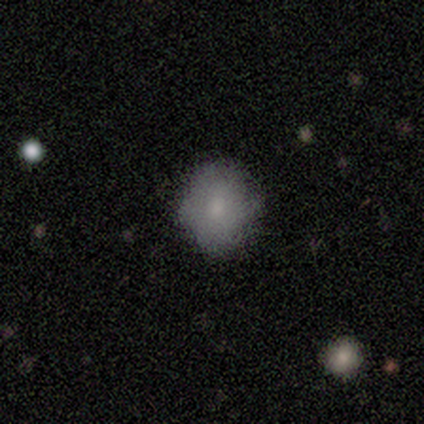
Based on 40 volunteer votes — This is likely a smooth galaxy (70%). How rounded: likely round (75%). Merging: likely none (68%).